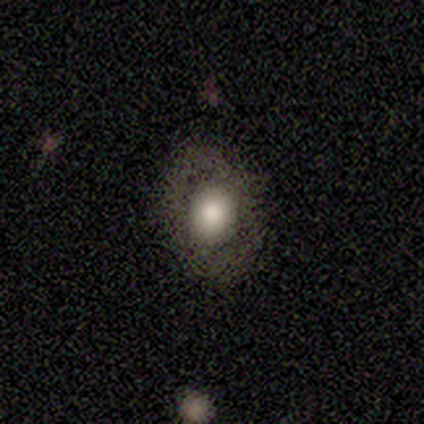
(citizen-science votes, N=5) Smooth or featured: smooth — 100%
How rounded: in between — 80% (round — 20%)
Merging: none — 80% (minor disturbance — 20%)